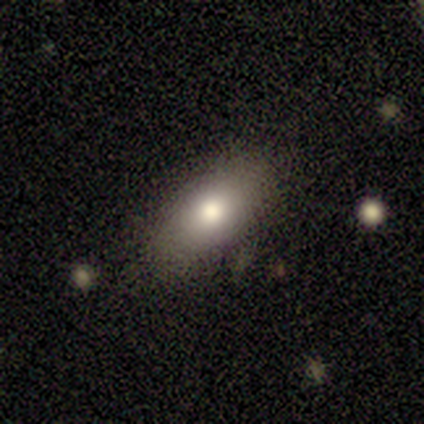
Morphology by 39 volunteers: Overall: smooth (72%). How rounded: in between (68%). Merging: none (82%).